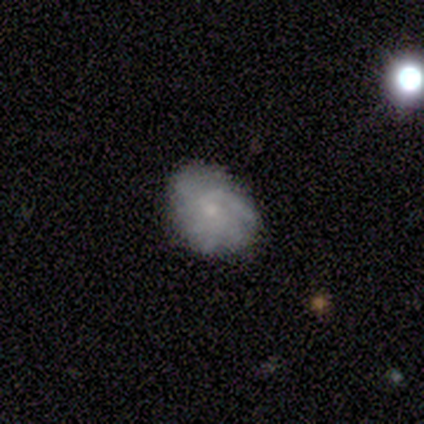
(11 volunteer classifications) A featured or disk galaxy (82%) with no bar (78%), tight (44%) spiral arms (100%) and a small central bulge (67%).

Vote fractions:
- Smooth or featured? featured or disk: 82% / smooth: 18% / star or artifact: 0%
- Edge-on disk? no: 100% / yes: 0%
- Bar? no: 78% / weak: 22% / strong: 0%
- Spiral arms? yes: 100% / no: 0%
- Spiral winding? tight: 44% / medium: 33% / loose: 22%
- Spiral arm count? can't tell: 44% / more than 4: 22% / 1: 11% / 3: 11% / 4: 11% / 2: 0%
- Bulge size? small: 67% / moderate: 22% / dominant: 11% / large: 0% / none: 0%
- Merging? none: 82% / minor disturbance: 9% / major disturbance: 9% / merger: 0%